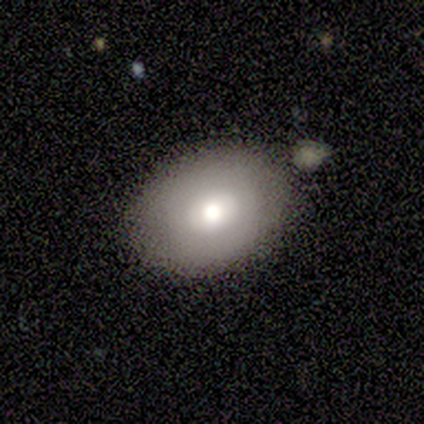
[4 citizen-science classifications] Smooth or featured?
  - smooth: 75% *
  - star or artifact: 25%
  - featured or disk: 0%
How rounded?
  - in between: 100% *
  - round: 0%
  - cigar-shaped: 0%
Merging?
  - none: 100% *
  - minor disturbance: 0%
  - major disturbance: 0%
  - merger: 0%